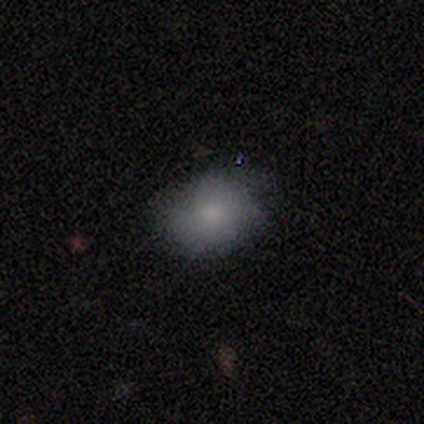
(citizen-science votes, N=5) Morphology: type=smooth (100%); roundness=in between (80%); merging=none (60%).